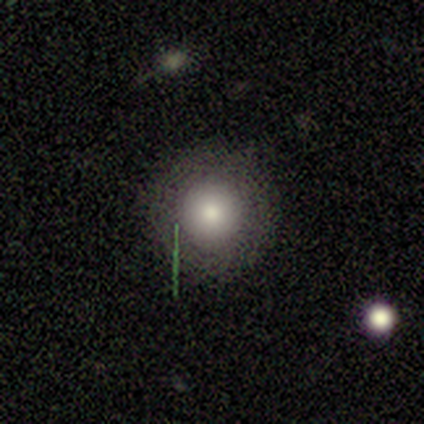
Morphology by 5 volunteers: smooth 60%, featured or disk 20%, star or artifact 20%. Down the decision tree: how rounded — round (100%); merging — none (100%).